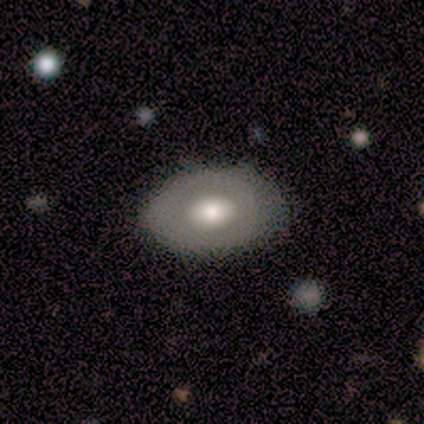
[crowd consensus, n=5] Smooth or featured? smooth (40%, tied with featured or disk)
How rounded? in between (100%)
Merging? none (75%)